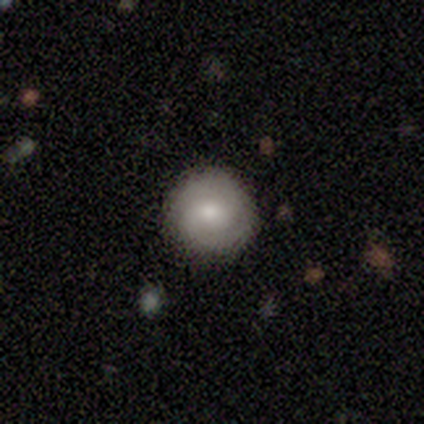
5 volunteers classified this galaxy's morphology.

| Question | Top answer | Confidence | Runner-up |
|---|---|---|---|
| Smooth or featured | featured or disk | 60% | smooth (40%) |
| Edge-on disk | no | 100% | — |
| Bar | weak | 67% | no (33%) |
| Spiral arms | yes | 67% | no (33%) |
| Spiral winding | medium | 100% | — |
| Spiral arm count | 2 | 50% | tied: 3 (50%) |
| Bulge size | moderate | 67% | small (33%) |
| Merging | none | 80% | minor disturbance (20%) |